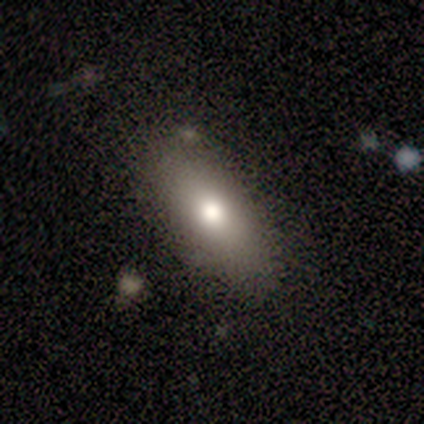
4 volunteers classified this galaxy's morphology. smooth 100%, featured or disk 0%, star or artifact 0%. Down the decision tree: how rounded — in between (75%); merging — none (75%).